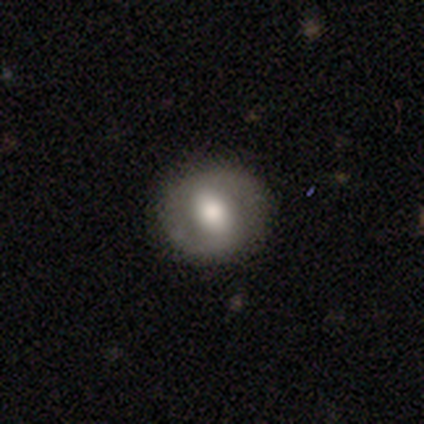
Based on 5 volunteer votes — Smooth or featured: featured or disk — 80% (smooth — 20%)
Edge-on disk: no — 100%
Bar: strong — 50% (tied with weak — 50%)
Spiral arms: yes — 100%
Spiral winding: tight — 75% (loose — 25%)
Spiral arm count: 2 — 75% (1 — 25%)
Bulge size: large — 50% (moderate — 25%)
Merging: none — 100%